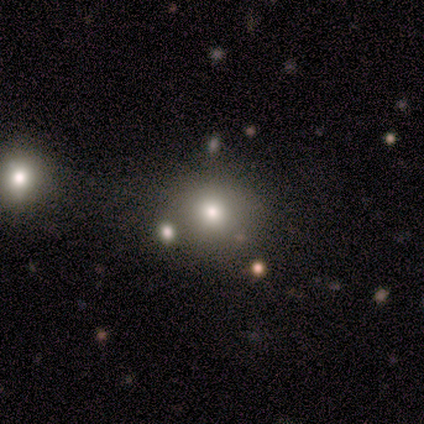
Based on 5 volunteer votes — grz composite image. It shows a smooth galaxy with no disk features (60%) that is round (100%). Merging: none (100%).